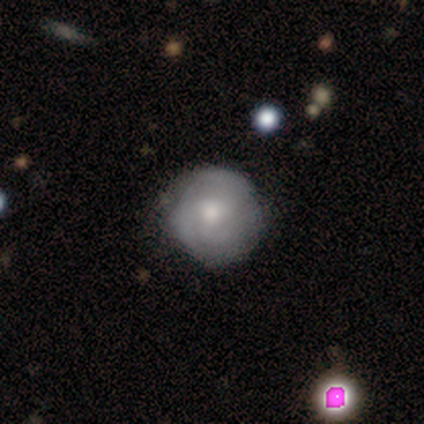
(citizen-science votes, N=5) smooth_or_featured: featured or disk (p=0.60) [alt: smooth p=0.40]
disk_edge_on: no (p=1.00)
bar: no (p=1.00)
has_spiral_arms: yes (p=0.67) [alt: no p=0.33]
spiral_winding: tight (p=1.00)
spiral_arm_count: can't tell (p=1.00)
bulge_size: moderate (p=1.00)
merging: none (p=0.60) [alt: minor disturbance p=0.20]